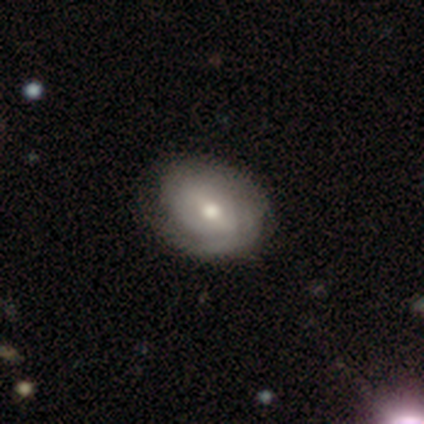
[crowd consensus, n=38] Overall: featured or disk (82%). Edge-on disk: no (97%). Bar: weak (53%; strong 23%). Spiral arms: yes (70%; no 30%). Spiral arm count: 2 (43%; can't tell 38%). Spiral winding: tight (71%). Bulge size: moderate (57%; small 27%). Merging: none (42%; minor disturbance 24%).